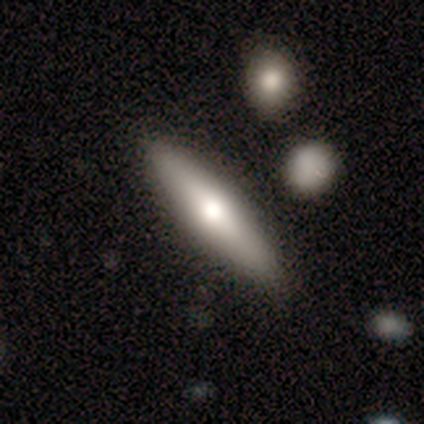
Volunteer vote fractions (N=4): A smooth galaxy with no disk features (75%) that is cigar-shaped (100%).

Vote fractions:
- Smooth or featured? smooth: 75% / featured or disk: 25% / star or artifact: 0%
- How rounded? cigar-shaped: 100% / round: 0% / in between: 0%
- Merging? none: 100% / minor disturbance: 0% / major disturbance: 0% / merger: 0%